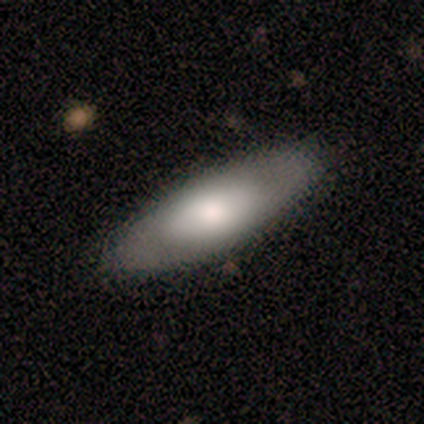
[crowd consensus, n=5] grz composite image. It shows a featured or disk galaxy (60%) with a weak bar (50%, tied with no), no spiral arms (100%) and a large central bulge (50%, tied with moderate). Merging: none (80%).